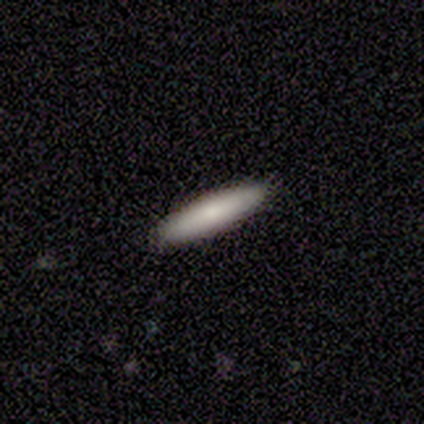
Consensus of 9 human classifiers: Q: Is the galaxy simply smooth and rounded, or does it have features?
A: smooth — 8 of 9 (89%).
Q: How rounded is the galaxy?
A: cigar-shaped — 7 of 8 (88%).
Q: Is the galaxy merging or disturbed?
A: none — 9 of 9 (100%).